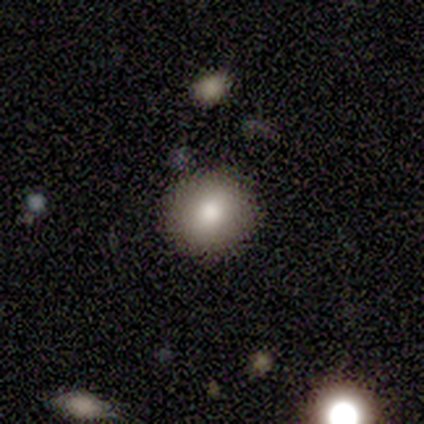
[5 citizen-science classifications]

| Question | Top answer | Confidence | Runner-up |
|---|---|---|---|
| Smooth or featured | smooth | 100% | — |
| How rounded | round | 80% | in between (20%) |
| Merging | none | 100% | — |